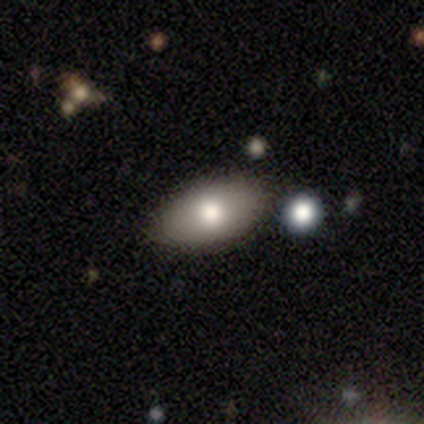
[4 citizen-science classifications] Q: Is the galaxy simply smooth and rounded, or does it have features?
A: smooth — 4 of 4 (100%).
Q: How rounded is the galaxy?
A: in between — 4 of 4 (100%).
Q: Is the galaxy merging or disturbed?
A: none — 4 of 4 (100%).